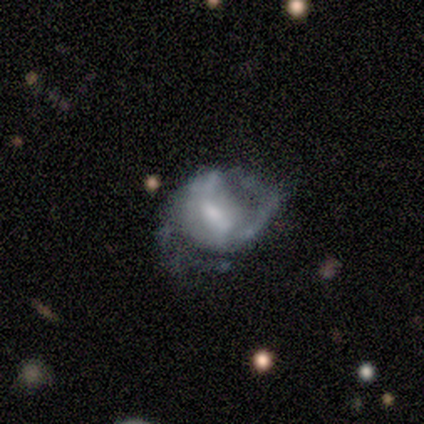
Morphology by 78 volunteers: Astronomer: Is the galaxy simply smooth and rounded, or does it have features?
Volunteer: featured or disk — 85%.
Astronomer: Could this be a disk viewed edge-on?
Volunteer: no — 100%.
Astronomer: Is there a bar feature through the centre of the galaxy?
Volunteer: weak — 61%.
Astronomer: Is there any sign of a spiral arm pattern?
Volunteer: yes — 86%.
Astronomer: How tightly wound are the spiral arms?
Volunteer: medium — 53%.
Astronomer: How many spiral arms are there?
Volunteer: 2 — 75%.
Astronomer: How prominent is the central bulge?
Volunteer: moderate — 39% (runner-up: small, 32%).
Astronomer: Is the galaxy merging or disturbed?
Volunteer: none — 38% (runner-up: major disturbance, 33%).